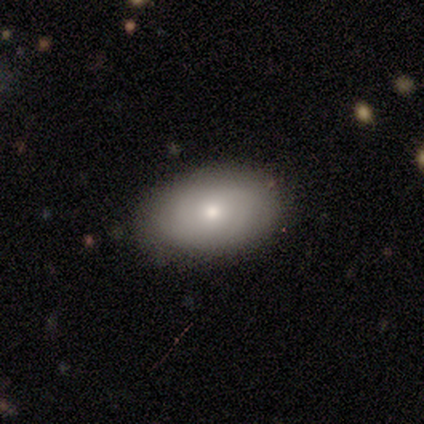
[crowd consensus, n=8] Overall: smooth (62%; featured or disk 25%). How rounded: in between (100%). Merging: none (86%).